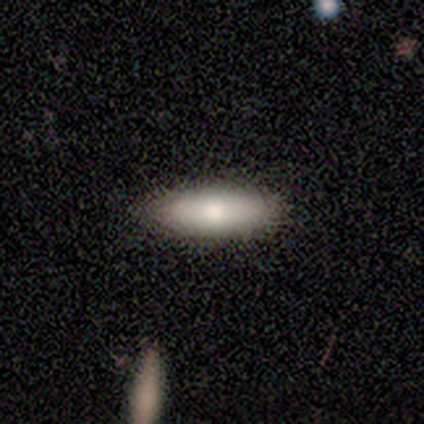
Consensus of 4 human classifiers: smooth-or-featured: smooth: 75% | featured or disk: 25% | star or artifact: 0%
  how-rounded: in between: 67% | cigar-shaped: 33% | round: 0%
  merging: none: 100% | minor disturbance: 0% | major disturbance: 0% | merger: 0%